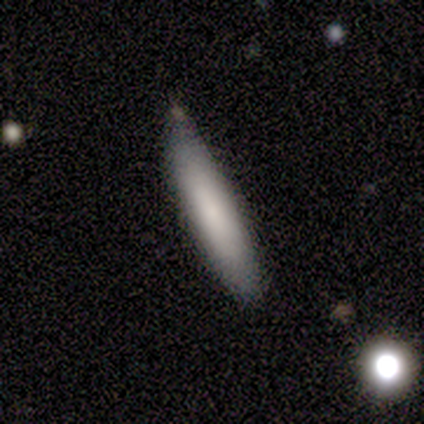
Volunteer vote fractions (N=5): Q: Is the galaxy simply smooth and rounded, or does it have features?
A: smooth — 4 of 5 (80%).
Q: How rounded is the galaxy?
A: cigar-shaped — 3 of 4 (75%).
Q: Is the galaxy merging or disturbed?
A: minor disturbance — 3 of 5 (60%).